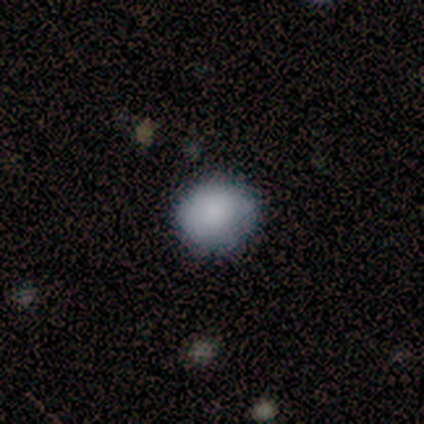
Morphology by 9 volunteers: Smooth or featured: smooth — 67% (star or artifact — 22%)
How rounded: round — 83% (in between — 17%)
Merging: none — 71% (minor disturbance — 29%)